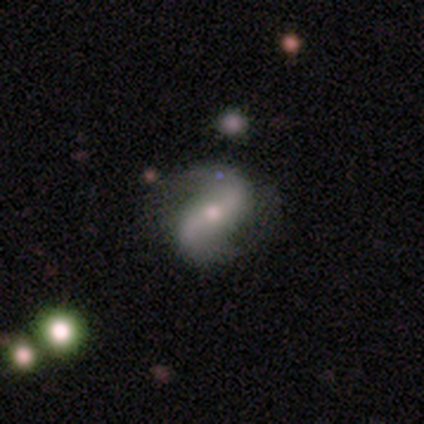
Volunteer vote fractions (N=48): featured or disk 92%, smooth 8%, star or artifact 0%. Down the decision tree: edge-on disk — no (95%); bar — no (38%); spiral arms — yes (93%); spiral arm count — 2 (100%); spiral winding — loose (64%); bulge size — moderate (55%); merging — none (67%).